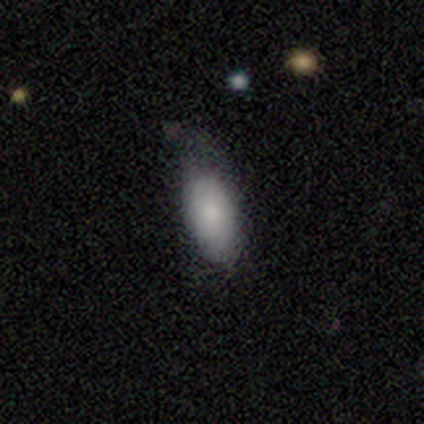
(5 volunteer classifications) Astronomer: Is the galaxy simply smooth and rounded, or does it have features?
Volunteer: smooth — 80%.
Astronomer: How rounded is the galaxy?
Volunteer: in between — 100%.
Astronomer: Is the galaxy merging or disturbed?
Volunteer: none — 60%.